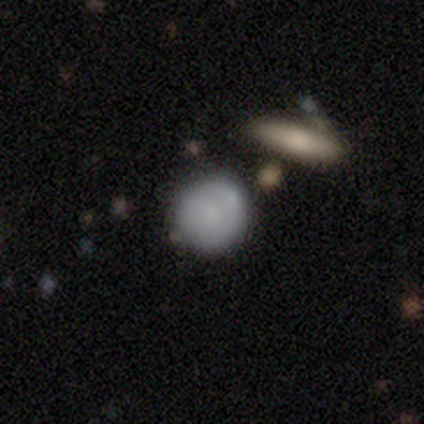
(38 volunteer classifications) This is likely a smooth galaxy (79%). How rounded: likely round (77%). Merging: clearly none (89%).